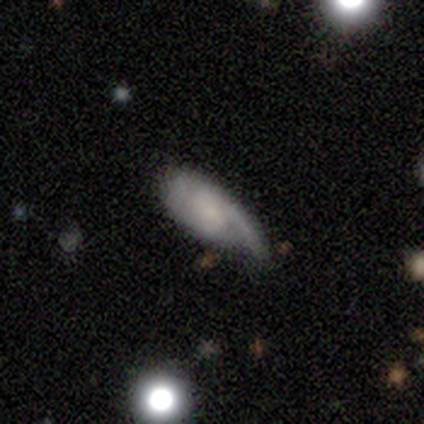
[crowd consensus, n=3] Smooth or featured? smooth (67%)
How rounded? in between (50%, tied with cigar-shaped)
Merging? none (50%, tied with minor disturbance)